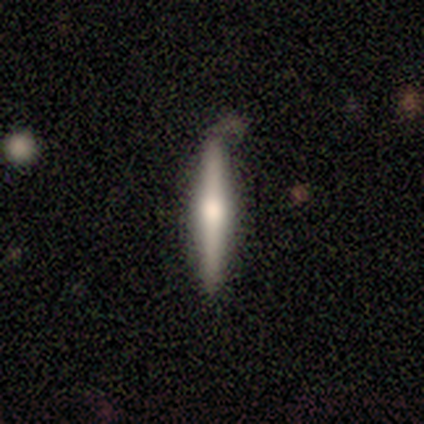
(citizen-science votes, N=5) Q: Smooth or featured?
A: featured or disk (60%); runner-up: smooth (40%)
Q: Edge-on disk?
A: yes (100%)
Q: Edge-on bulge?
A: rounded (100%)
Q: Merging?
A: none (100%)